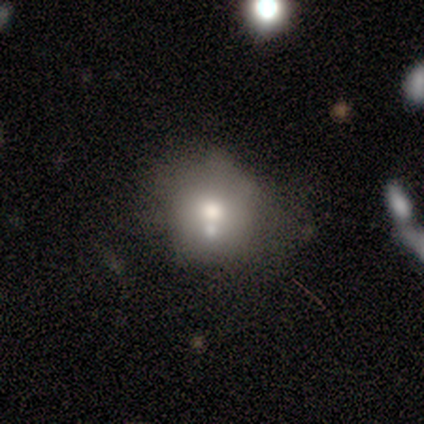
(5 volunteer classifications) Smooth or featured? star or artifact (60%)